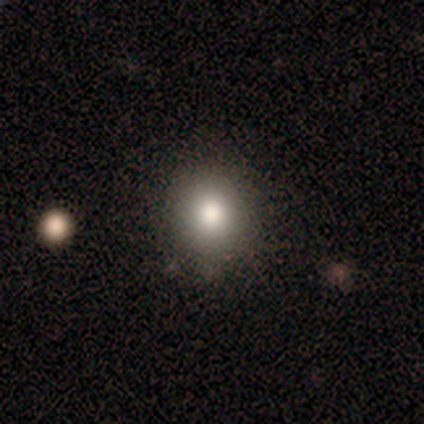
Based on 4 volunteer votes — smooth 75%, star or artifact 25%, featured or disk 0%. Down the decision tree: how rounded — round (67%); merging — none (67%).